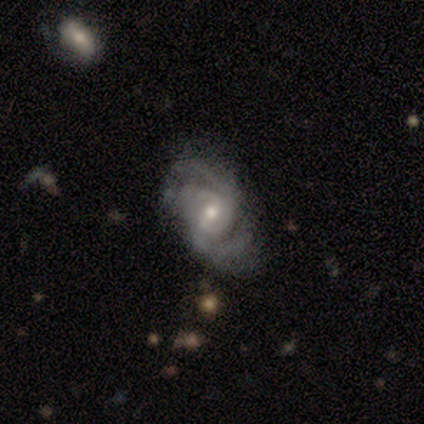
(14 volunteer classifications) Smooth or featured? 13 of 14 (93%) said featured or disk. Edge-on disk? 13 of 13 (100%) said no. Bar? 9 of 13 (69%) said weak. Spiral arms? 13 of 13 (100%) said yes. Spiral winding? 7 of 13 (54%) said medium. Spiral arm count? 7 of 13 (54%) said 2. Bulge size? 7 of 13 (54%) said small. Merging? 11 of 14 (79%) said none.